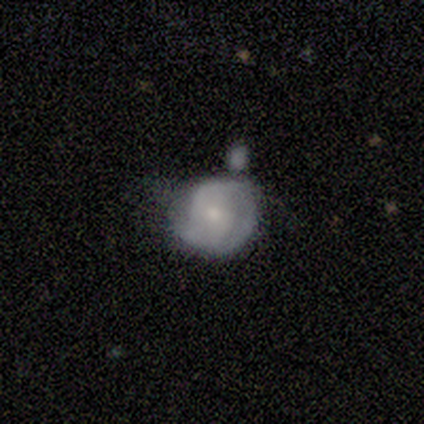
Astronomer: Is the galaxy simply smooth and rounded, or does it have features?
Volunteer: featured or disk — 86%.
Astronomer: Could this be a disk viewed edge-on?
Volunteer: no — 83%.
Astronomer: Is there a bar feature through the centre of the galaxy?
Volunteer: no — 60% (runner-up: weak, 40%).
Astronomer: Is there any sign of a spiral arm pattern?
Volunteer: no — 60% (runner-up: yes, 40%).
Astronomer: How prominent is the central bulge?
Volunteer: small — 80%.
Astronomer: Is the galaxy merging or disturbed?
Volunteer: minor disturbance — 71%.